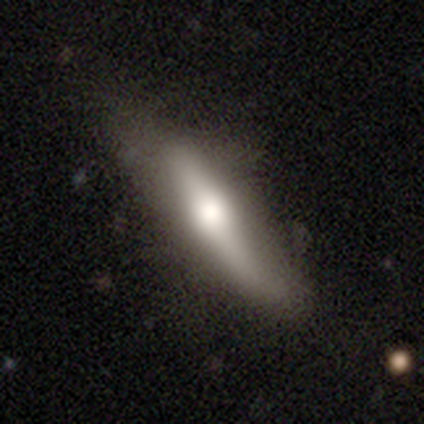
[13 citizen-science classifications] Morphology: type=featured or disk (62%); edge-on=yes (75%); edge-on bulge=rounded (83%); merging=none (69%).